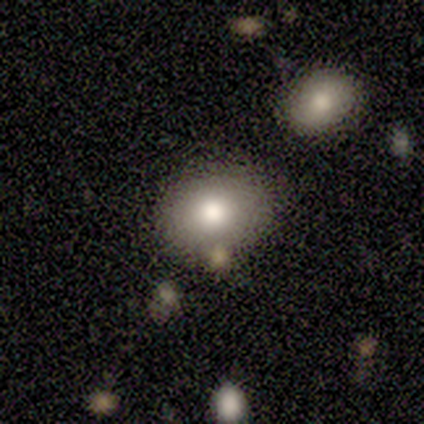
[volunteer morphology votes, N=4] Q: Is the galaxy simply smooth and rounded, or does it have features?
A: smooth — 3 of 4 (75%).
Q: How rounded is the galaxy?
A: round — 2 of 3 (67%).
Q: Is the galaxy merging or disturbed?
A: none — 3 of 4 (75%).